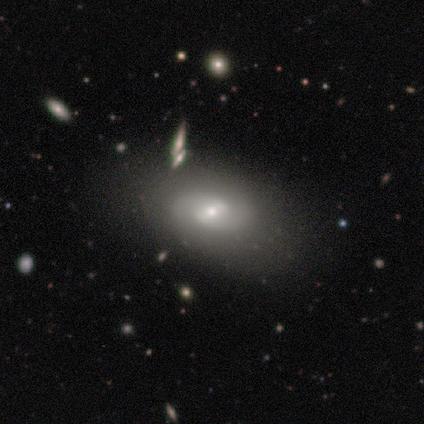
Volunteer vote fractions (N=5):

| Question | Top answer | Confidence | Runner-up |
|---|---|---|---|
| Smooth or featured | featured or disk | 100% | — |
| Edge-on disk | no | 100% | — |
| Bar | weak | 60% | strong (20%) |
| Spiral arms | yes | 60% | no (40%) |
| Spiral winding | medium | 67% | loose (33%) |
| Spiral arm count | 2 | 100% | — |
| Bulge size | small | 60% | moderate (40%) |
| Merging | none | 100% | — |